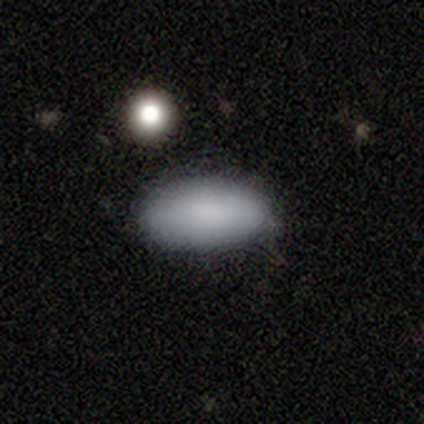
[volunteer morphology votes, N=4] Smooth or featured? smooth (100%)
How rounded? in between (100%)
Merging? none (75%)